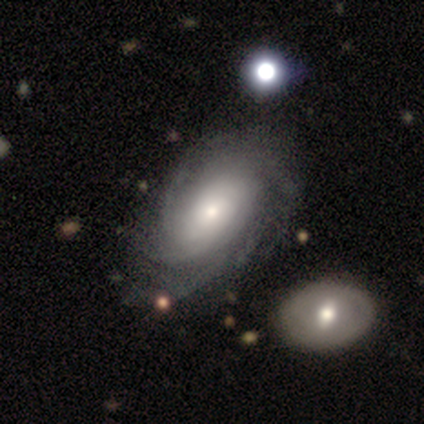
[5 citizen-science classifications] This appears to be a smooth galaxy with no disk features (40%, tied with featured or disk) that is in between round and cigar-shaped (50%, tied with cigar-shaped). Merging: none (50%, tied with major disturbance).